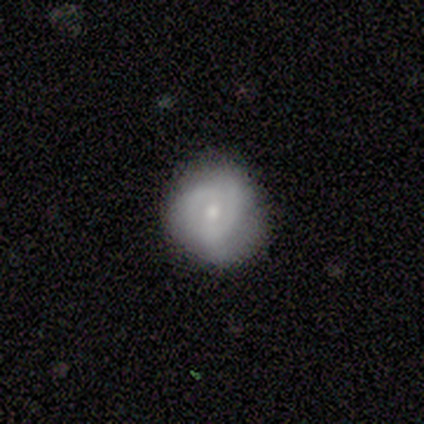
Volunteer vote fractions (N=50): smooth_or_featured: featured or disk (p=0.64) [alt: smooth p=0.34]
disk_edge_on: no (p=0.97) [alt: yes p=0.03]
bar: no (p=0.58) [alt: weak p=0.32]
has_spiral_arms: yes (p=0.65) [alt: no p=0.35]
spiral_winding: tight (p=0.65) [alt: medium p=0.25]
spiral_arm_count: can't tell (p=0.45) [alt: 2 p=0.40]
bulge_size: moderate (p=0.58) [alt: small p=0.42]
merging: none (p=0.67) [alt: minor disturbance p=0.24]